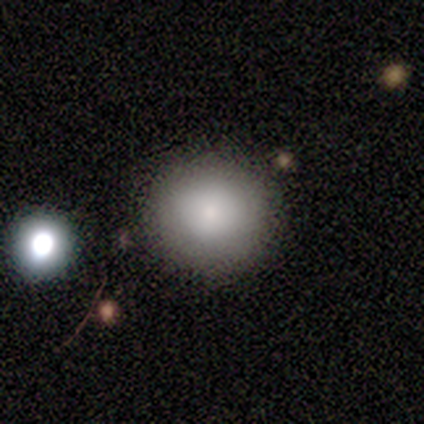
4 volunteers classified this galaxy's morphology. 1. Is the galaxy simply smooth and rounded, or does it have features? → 100% smooth, 0% featured or disk, 0% star or artifact.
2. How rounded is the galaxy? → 100% round, 0% in between, 0% cigar-shaped.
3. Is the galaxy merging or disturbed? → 75% none, 25% merger, 0% minor disturbance, 0% major disturbance.